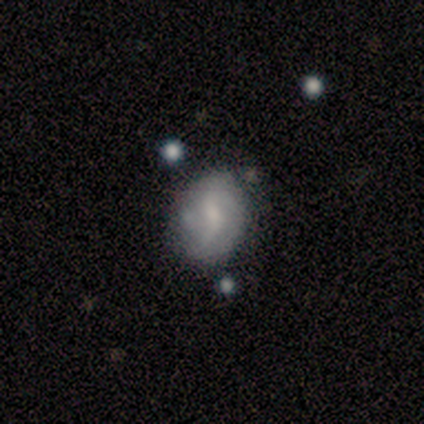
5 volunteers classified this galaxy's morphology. A featured or disk galaxy (80%) with no bar (75%), 2 (100%) tight (33%, tied with medium and loose) spiral arms (75%) and a small central bulge (75%).

Vote fractions:
- Smooth or featured? featured or disk: 80% / smooth: 20% / star or artifact: 0%
- Edge-on disk? no: 100% / yes: 0%
- Bar? no: 75% / weak: 25% / strong: 0%
- Spiral arms? yes: 75% / no: 25%
- Spiral winding? tight: 33% (tied) / medium: 33% (tied) / loose: 33% (tied)
- Spiral arm count? 2: 100% / 1: 0% / 3: 0% / 4: 0% / more than 4: 0% / can't tell: 0%
- Bulge size? small: 75% / none: 25% / dominant: 0% / large: 0% / moderate: 0%
- Merging? none: 80% / major disturbance: 20% / minor disturbance: 0% / merger: 0%